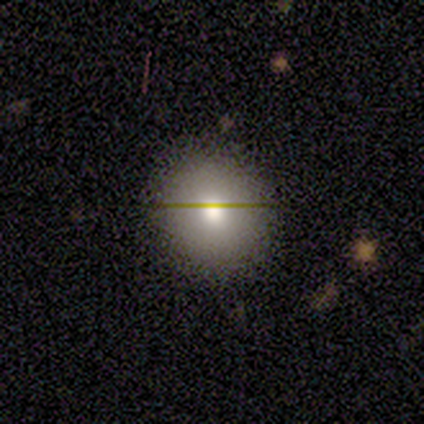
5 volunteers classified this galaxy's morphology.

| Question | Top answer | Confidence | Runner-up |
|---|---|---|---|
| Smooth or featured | smooth | 60% | featured or disk (20%) |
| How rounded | in between | 67% | round (33%) |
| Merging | none | 100% | — |